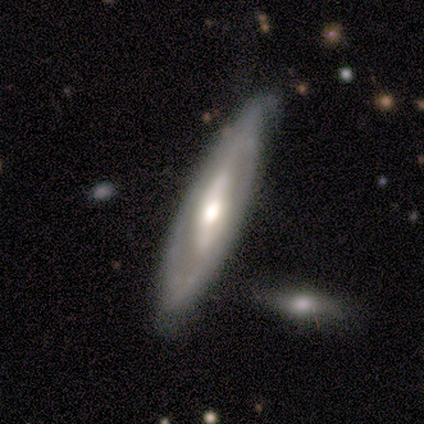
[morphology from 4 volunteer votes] This appears to be a featured or disk galaxy (100%) with a strong bar (67%), 2 (100%) tight (50%, tied with loose) spiral arms (67%) and a moderate central bulge (67%). Merging: none (75%).